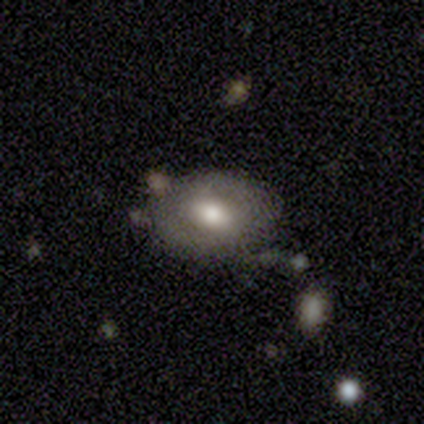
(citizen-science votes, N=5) Overall: smooth (60%; featured or disk 40%). How rounded: in between (100%). Merging: none (60%; minor disturbance 20%).